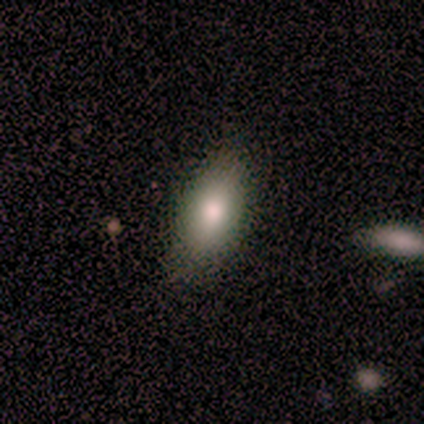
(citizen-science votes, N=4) This appears to be a smooth galaxy with no disk features (75%) that is in between round and cigar-shaped (100%). Merging: none (100%).